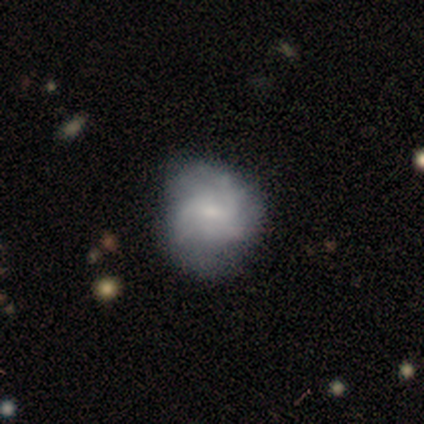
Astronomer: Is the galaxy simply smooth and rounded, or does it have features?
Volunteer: featured or disk — 80%.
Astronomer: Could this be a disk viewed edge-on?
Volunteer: no — 100%.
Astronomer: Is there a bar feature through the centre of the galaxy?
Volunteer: weak — 50%, tied with no at 50%.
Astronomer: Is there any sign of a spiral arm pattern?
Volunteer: yes — 100%.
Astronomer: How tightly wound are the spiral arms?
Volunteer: tight — 50%, tied with loose at 50%.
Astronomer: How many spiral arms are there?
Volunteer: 2 — 50%.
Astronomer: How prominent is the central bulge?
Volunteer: small — 75%.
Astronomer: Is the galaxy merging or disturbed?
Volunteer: none — 60% (runner-up: minor disturbance, 40%).